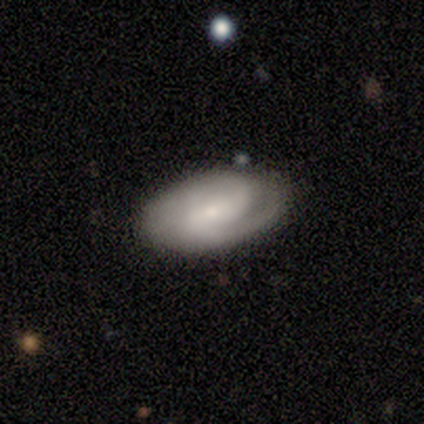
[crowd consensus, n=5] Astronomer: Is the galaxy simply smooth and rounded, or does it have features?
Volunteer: smooth — 60%.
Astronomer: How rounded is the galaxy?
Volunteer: in between — 100%.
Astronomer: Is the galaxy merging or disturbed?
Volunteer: none — 50%, tied with minor disturbance at 50%.